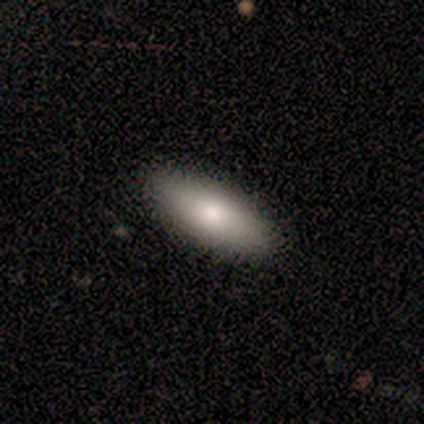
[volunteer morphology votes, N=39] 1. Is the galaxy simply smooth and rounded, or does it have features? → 77% smooth, 18% featured or disk, 5% star or artifact.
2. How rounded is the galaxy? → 73% in between, 20% cigar-shaped, 7% round.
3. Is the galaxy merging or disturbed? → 81% none, 16% minor disturbance, 3% major disturbance, 0% merger.